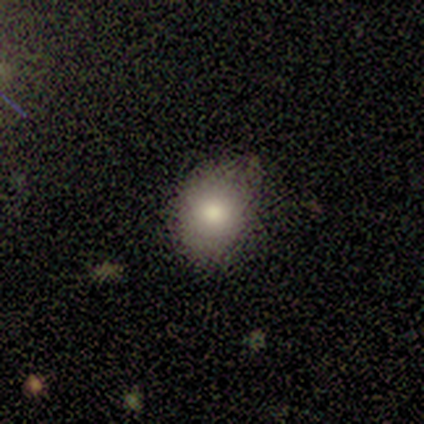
Morphology: type=smooth (85%); roundness=round (64%); merging=none (83%).